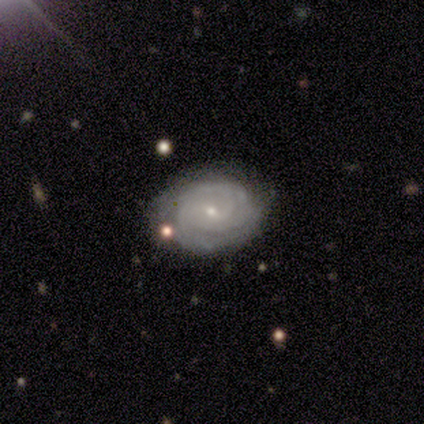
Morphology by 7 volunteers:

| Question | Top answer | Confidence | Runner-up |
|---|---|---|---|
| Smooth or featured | featured or disk | 71% | smooth (14%) |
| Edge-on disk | no | 100% | — |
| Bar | no | 60% | weak (40%) |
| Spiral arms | yes | 100% | — |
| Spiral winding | tight | 80% | medium (20%) |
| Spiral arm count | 3 | 40% | tied: can't tell (40%) |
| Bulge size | small | 80% | dominant (20%) |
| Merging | none | 67% | minor disturbance (33%) |